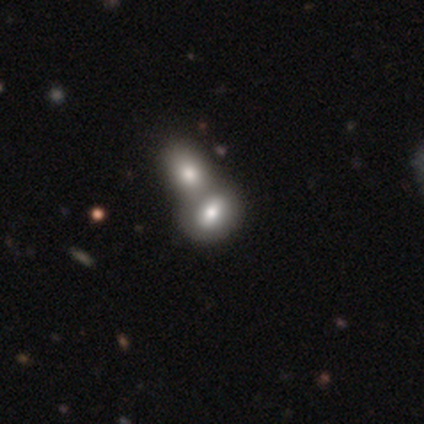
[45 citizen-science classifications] Smooth or featured? smooth (73%)
How rounded? in between (70%)
Merging? merger (86%)